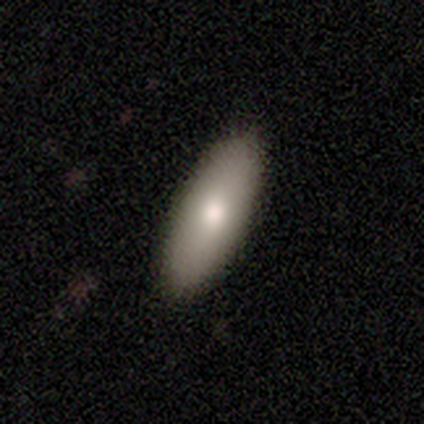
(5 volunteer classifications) Morphology: type=smooth (80%); roundness=in between (75%); merging=none (100%).